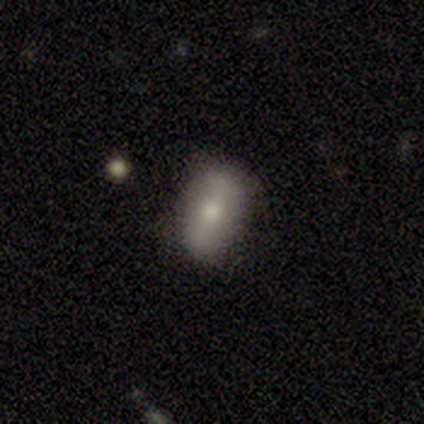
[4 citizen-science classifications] smooth_or_featured: smooth (p=0.75) [alt: featured or disk p=0.25]
how_rounded: in between (p=1.00)
merging: none (p=1.00)